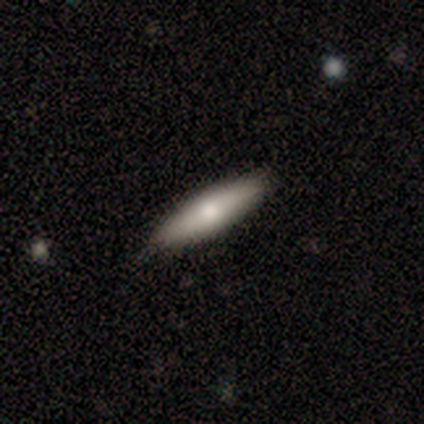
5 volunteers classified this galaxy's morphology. type=smooth (40%, tied with featured or disk); roundness=cigar-shaped (100%); merging=none (75%).